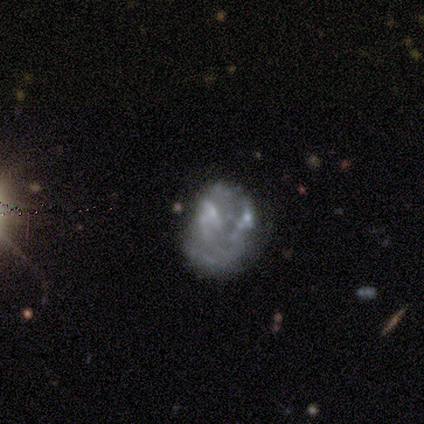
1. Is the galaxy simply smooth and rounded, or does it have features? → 60% featured or disk, 20% smooth, 20% star or artifact.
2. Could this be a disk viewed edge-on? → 100% no, 0% yes.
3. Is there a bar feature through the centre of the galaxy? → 100% no, 0% strong, 0% weak.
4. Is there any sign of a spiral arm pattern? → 100% no, 0% yes.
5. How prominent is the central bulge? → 100% none, 0% dominant, 0% large, 0% moderate, 0% small.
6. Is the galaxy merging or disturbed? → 50% minor disturbance, 25% major disturbance, 25% merger, 0% none.